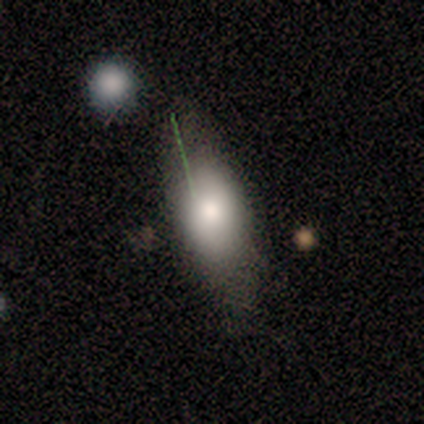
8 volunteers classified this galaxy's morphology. A smooth galaxy with no disk features (62%) that is in between round and cigar-shaped (80%).

Vote fractions:
- Smooth or featured? smooth: 62% / featured or disk: 25% / star or artifact: 12%
- How rounded? in between: 80% / cigar-shaped: 20% / round: 0%
- Merging? none: 57% / major disturbance: 29% / minor disturbance: 14% / merger: 0%